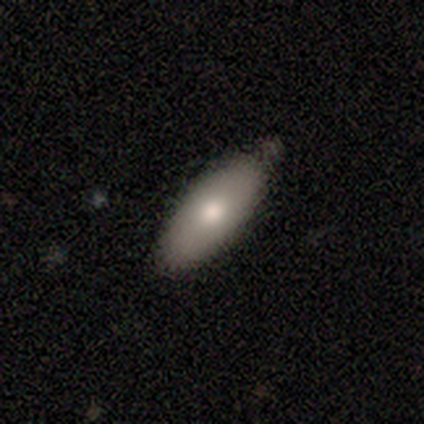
smooth-or-featured: smooth: 50% | featured or disk: 38% | star or artifact: 12%
  how-rounded: in between: 100% | round: 0% | cigar-shaped: 0%
  merging: none: 100% | minor disturbance: 0% | major disturbance: 0% | merger: 0%